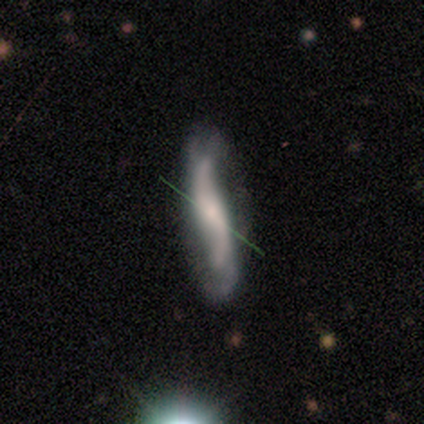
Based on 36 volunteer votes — Morphology: type=featured or disk (58%); edge-on=no (76%); bar=no (56%); spiral arms=yes (94%); winding=loose (100%); arm count=2 (87%); bulge=small (44%); merging=none (62%).